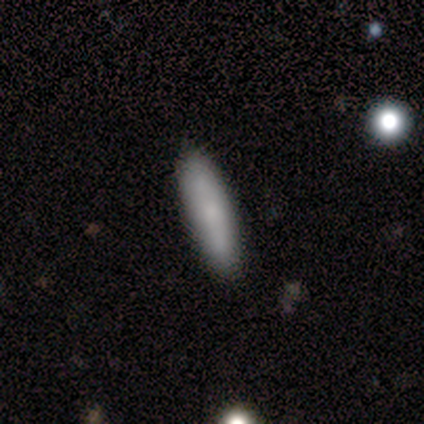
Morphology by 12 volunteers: A smooth galaxy with no disk features (92%) that is cigar-shaped (91%).

Vote fractions:
- Smooth or featured? smooth: 92% / featured or disk: 8% / star or artifact: 0%
- How rounded? cigar-shaped: 91% / in between: 9% / round: 0%
- Merging? none: 100% / minor disturbance: 0% / major disturbance: 0% / merger: 0%